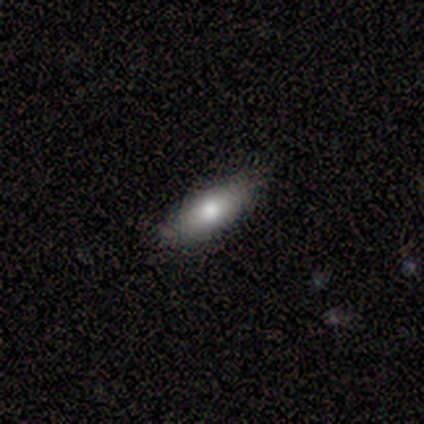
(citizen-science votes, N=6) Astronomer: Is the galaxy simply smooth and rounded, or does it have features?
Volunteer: smooth — 83%.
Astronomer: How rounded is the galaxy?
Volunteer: in between — 80%.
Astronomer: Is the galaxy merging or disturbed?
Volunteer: none — 100%.